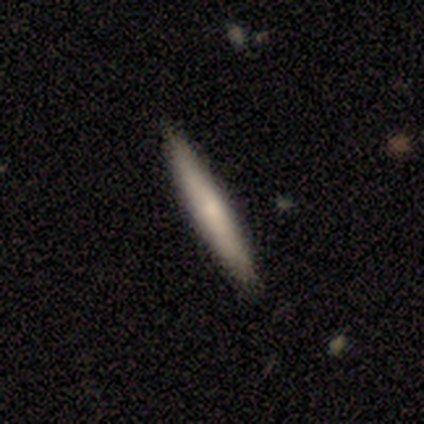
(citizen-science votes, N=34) Smooth or featured?
  - smooth: 65% *
  - featured or disk: 32%
  - star or artifact: 3%
How rounded?
  - cigar-shaped: 100% *
  - round: 0%
  - in between: 0%
Merging?
  - none: 97% *
  - merger: 3%
  - minor disturbance: 0%
  - major disturbance: 0%